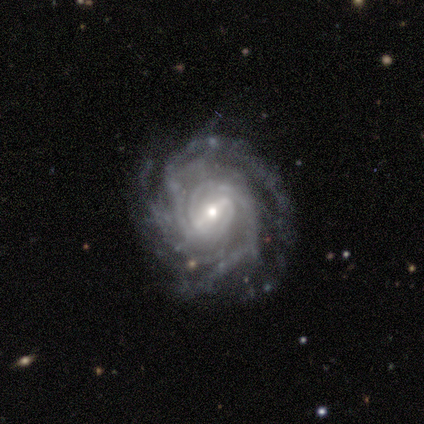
Smooth or featured: featured or disk — 100%
Edge-on disk: no — 80% (yes — 20%)
Bar: strong — 100%
Spiral arms: yes — 100%
Spiral winding: tight — 100%
Spiral arm count: 3 — 50% (2 — 25%)
Bulge size: moderate — 50% (tied with small — 50%)
Merging: none — 80% (minor disturbance — 20%)